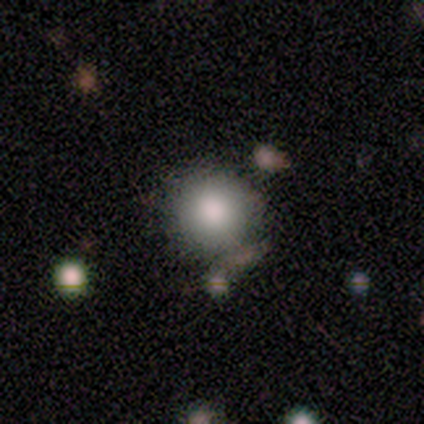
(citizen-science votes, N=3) Overall: smooth (100%). How rounded: round (100%). Merging: none (100%).